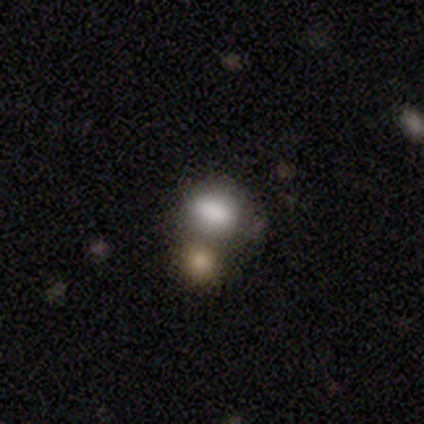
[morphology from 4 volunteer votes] This appears to be a smooth galaxy with no disk features (50%) that is round (50%, tied with in between). Merging: none (67%).